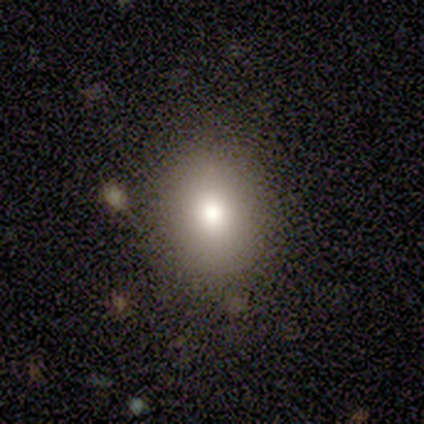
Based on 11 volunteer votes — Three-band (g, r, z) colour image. It shows a smooth galaxy with no disk features (91%) that is round (60%). Merging: none (90%).